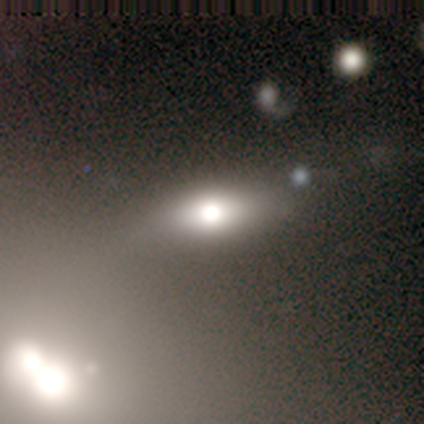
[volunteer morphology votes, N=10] A smooth galaxy with no disk features (60%) that is in between round and cigar-shaped (100%). Merging: none (86%).